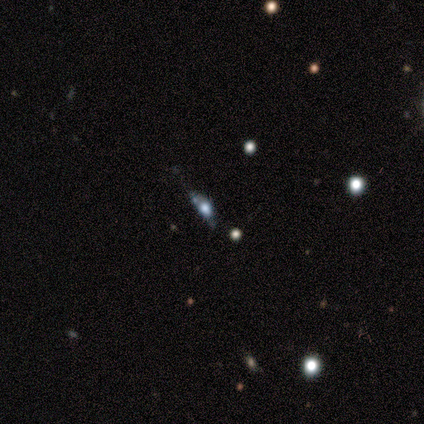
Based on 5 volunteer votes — Q: Smooth or featured?
A: smooth (80%); runner-up: star or artifact (20%)
Q: How rounded?
A: in between (100%)
Q: Merging?
A: none (50%); tied with: minor disturbance (50%)